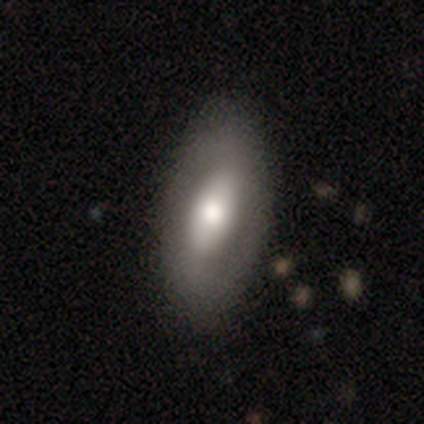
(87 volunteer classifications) Smooth or featured? 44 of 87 (51%) said featured or disk. Edge-on disk? 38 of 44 (86%) said no. Bar? 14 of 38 (37%, tied with no) said strong. Spiral arms? 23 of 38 (61%) said no. Bulge size? 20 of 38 (53%) said moderate. Merging? 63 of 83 (76%) said none.